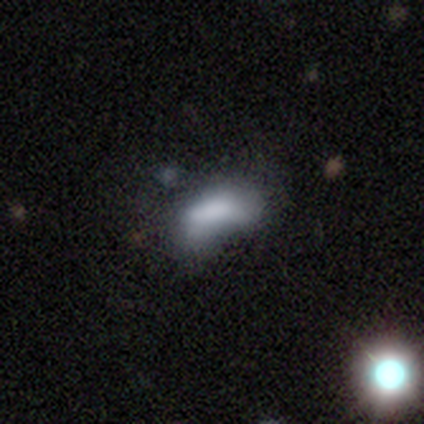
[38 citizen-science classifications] This appears to be a smooth galaxy with no disk features (66%) that is in between round and cigar-shaped (92%). Merging: minor disturbance (33%).